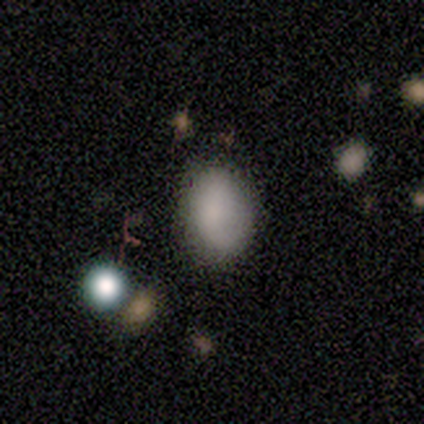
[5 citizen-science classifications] Smooth or featured: smooth — 80% (featured or disk — 20%)
How rounded: in between — 100%
Merging: none — 80% (minor disturbance — 20%)